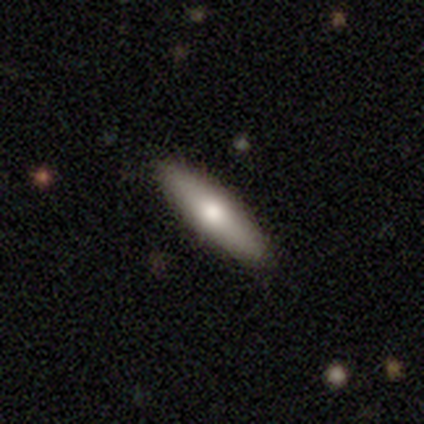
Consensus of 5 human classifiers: Smooth or featured: smooth — 80% (featured or disk — 20%)
How rounded: cigar-shaped — 75% (in between — 25%)
Merging: none — 100%